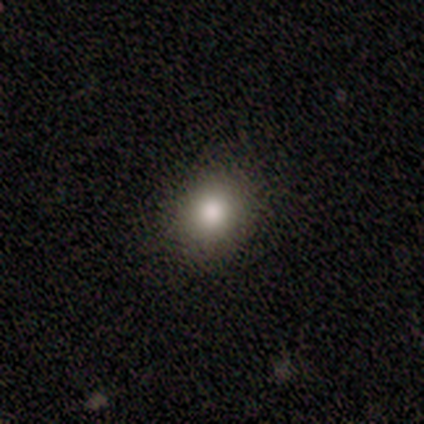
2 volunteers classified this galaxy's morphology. Smooth or featured? 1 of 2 (50%, tied with star or artifact) said smooth. How rounded? 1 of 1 (100%) said round. Merging? 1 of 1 (100%) said minor disturbance.